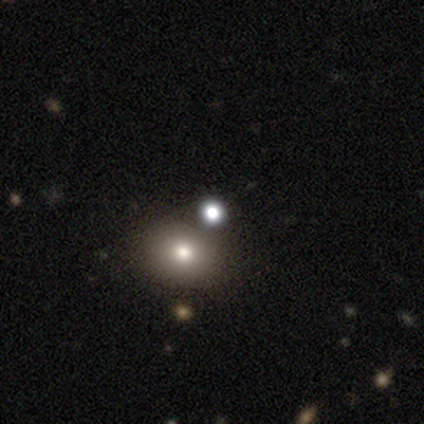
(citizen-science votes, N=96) This is likely a smooth galaxy (62%). How rounded: clearly round (85%). Merging: likely none (74%).